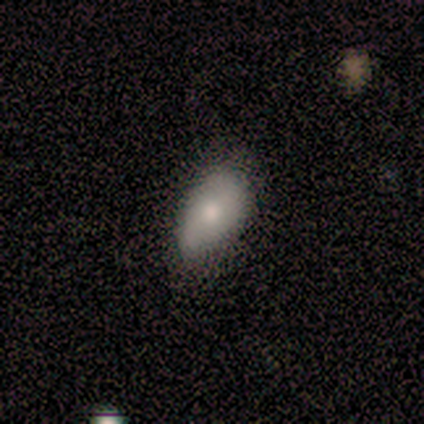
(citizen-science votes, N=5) Smooth or featured: smooth — 100%
How rounded: in between — 100%
Merging: minor disturbance — 60% (none — 40%)